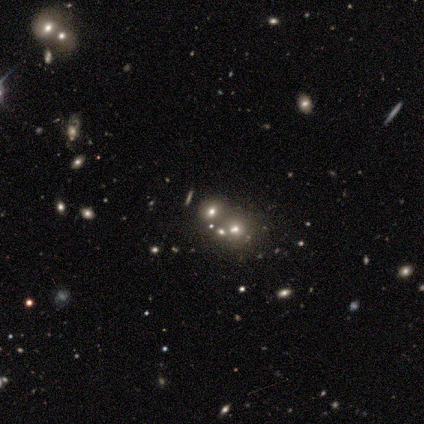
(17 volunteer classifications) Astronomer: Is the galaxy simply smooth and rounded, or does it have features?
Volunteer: smooth — 47% (runner-up: star or artifact, 29%).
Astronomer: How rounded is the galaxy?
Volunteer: round — 75%.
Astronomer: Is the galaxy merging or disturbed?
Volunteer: none — 67%.